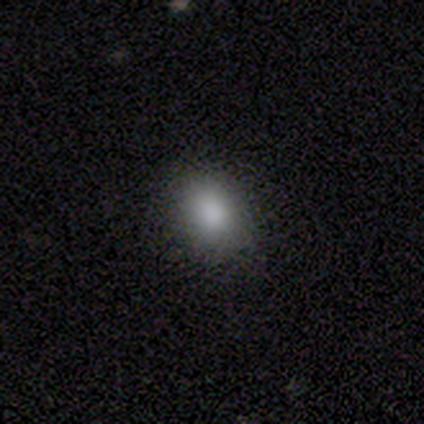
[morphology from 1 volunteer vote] Smooth or featured?
  - smooth: 100% *
  - featured or disk: 0%
  - star or artifact: 0%
How rounded?
  - cigar-shaped: 100% *
  - round: 0%
  - in between: 0%
Merging?
  - none: 100% *
  - minor disturbance: 0%
  - major disturbance: 0%
  - merger: 0%